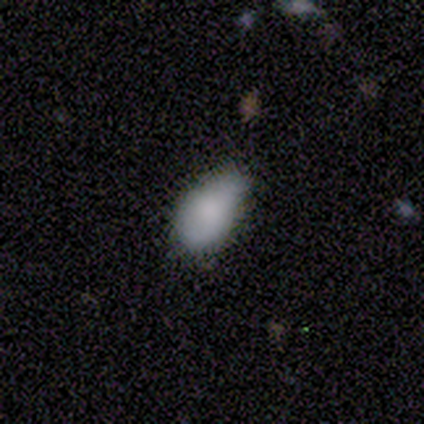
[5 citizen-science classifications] smooth 80%, featured or disk 20%, star or artifact 0%. Down the decision tree: how rounded — in between (100%); merging — minor disturbance (80%).